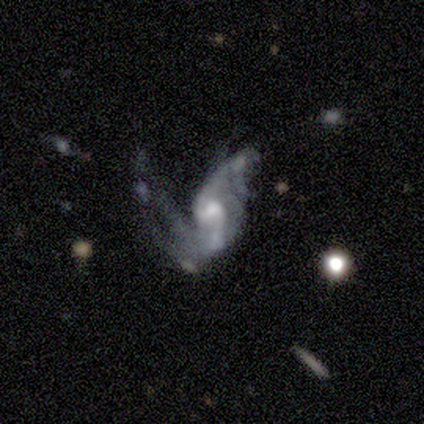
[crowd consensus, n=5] Overall: featured or disk (80%). Edge-on disk: no (100%). Bar: no (75%). Spiral arms: yes (100%). Spiral arm count: 2 (100%). Spiral winding: medium (50%, tied with loose). Bulge size: moderate (75%). Merging: major disturbance (50%; minor disturbance 25%).